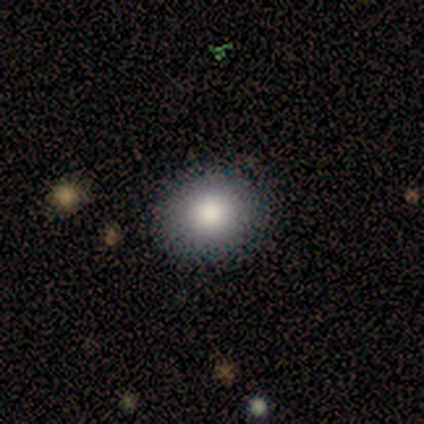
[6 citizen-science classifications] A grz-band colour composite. It shows a smooth galaxy with no disk features (83%) that is round (60%). Merging: none (100%).